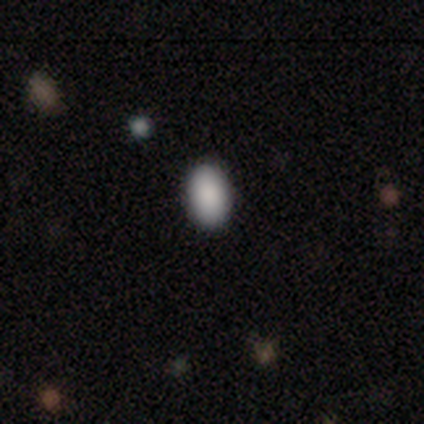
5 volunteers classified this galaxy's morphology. Volunteers were most divided on "how rounded": in between: 80%, round: 20%, cigar-shaped: 0%. More confident: smooth or featured — smooth (100%); merging — none (80%).